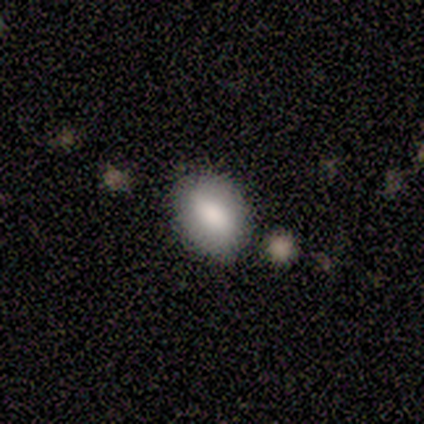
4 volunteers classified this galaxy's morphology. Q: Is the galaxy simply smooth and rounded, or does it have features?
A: smooth — 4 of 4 (100%).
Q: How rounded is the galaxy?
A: in between — 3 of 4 (75%).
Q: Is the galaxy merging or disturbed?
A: none — 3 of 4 (75%).